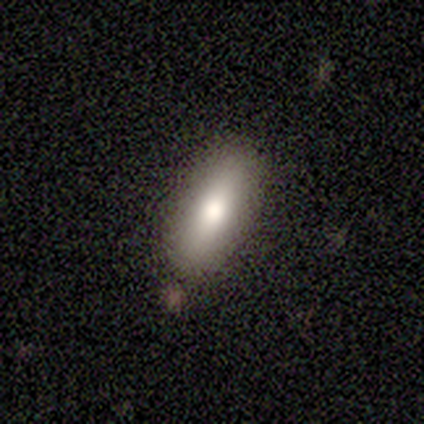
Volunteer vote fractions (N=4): Volunteers were most divided on "how rounded": in between: 67%, cigar-shaped: 33%, round: 0%. More confident: merging — none (100%); smooth or featured — smooth (75%).